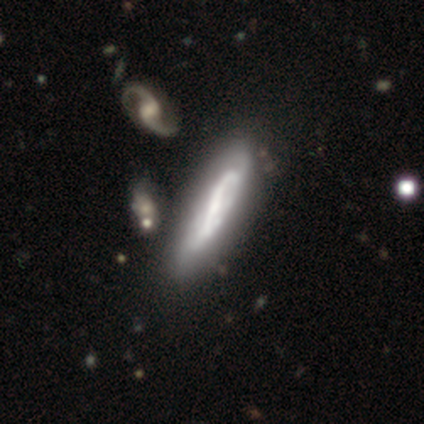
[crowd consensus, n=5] smooth_or_featured: featured or disk (p=0.80) [alt: smooth p=0.20]
disk_edge_on: yes (p=0.50) [tied with: no p=0.50]
edge_on_bulge: none (p=1.00)
merging: none (p=0.60) [alt: minor disturbance p=0.20]